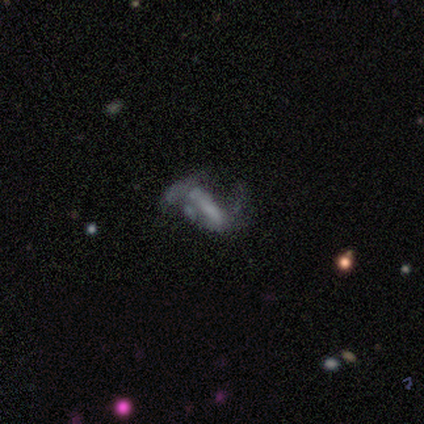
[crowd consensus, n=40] This appears to be a featured or disk galaxy (68%) with a strong bar (50%), 2 (75%) loose (88%) spiral arms (62%) and no central bulge (73%). Merging: major disturbance (47%).